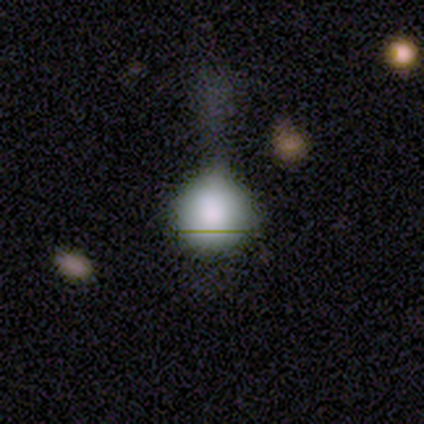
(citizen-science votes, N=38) Smooth or featured? 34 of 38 (89%) said smooth. How rounded? 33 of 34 (97%) said round. Merging? 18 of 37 (49%) said minor disturbance.